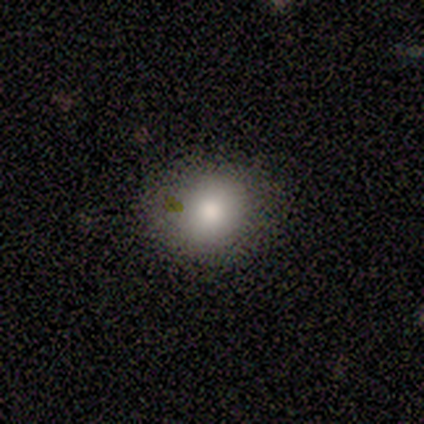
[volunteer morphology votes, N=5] Smooth or featured? smooth (80%)
How rounded? round (50%, tied with in between)
Merging? none (100%)